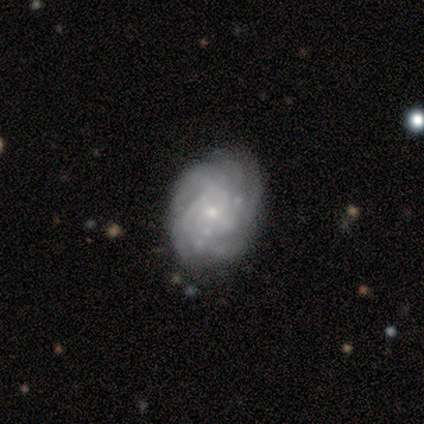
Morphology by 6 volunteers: type=featured or disk (83%); edge-on=no (100%); bar=no (80%); spiral arms=yes (80%); winding=tight (50%); arm count=2 (25%, tied with 4, more than 4 and can't tell); bulge=small (80%); merging=none (67%).